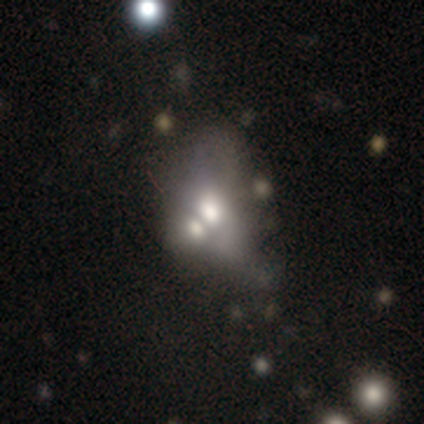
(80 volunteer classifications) A smooth galaxy with no disk features (46%) that is in between round and cigar-shaped (92%). Merging: merger (64%).